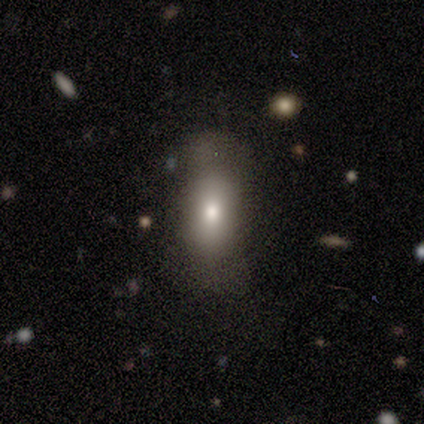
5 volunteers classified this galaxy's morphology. Overall: smooth (80%). How rounded: in between (50%; round 25%). Merging: none (40%, tied with minor disturbance).